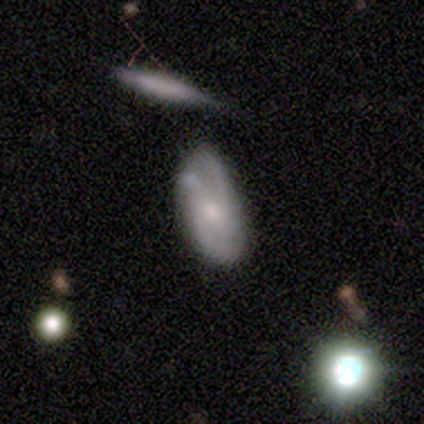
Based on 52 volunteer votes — A featured or disk galaxy (60%) with no bar (66%), 2 (42%) medium (54%) spiral arms (83%) and a moderate central bulge (48%).

Vote fractions:
- Smooth or featured? featured or disk: 60% / smooth: 31% / star or artifact: 10%
- Edge-on disk? no: 94% / yes: 6%
- Bar? no: 66% / weak: 24% / strong: 10%
- Spiral arms? yes: 83% / no: 17%
- Spiral winding? medium: 54% / tight: 38% / loose: 8%
- Spiral arm count? 2: 42% / 3: 29% / can't tell: 17% / 4: 12% / 1: 0% / more than 4: 0%
- Bulge size? moderate: 48% / small: 45% / large: 3% / none: 3% / dominant: 0%
- Merging? minor disturbance: 53% / none: 32% / major disturbance: 9% / merger: 6%